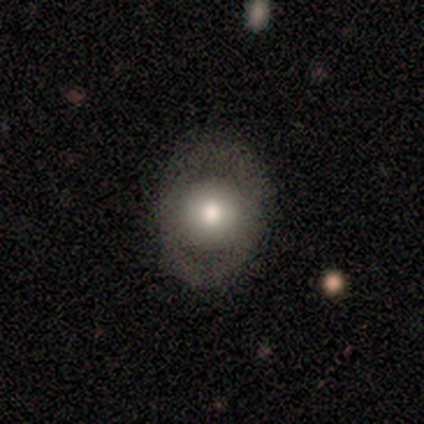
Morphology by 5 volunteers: Smooth or featured? smooth (80%)
How rounded? round (50%, tied with in between)
Merging? none (100%)